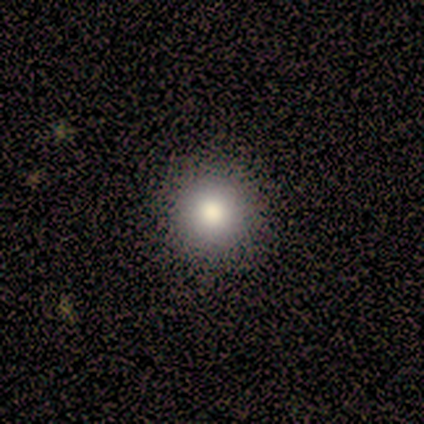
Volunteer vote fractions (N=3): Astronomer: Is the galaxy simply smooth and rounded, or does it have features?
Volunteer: smooth — 100%.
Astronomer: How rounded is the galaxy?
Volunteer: round — 100%.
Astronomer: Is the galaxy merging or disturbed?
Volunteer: none — 100%.